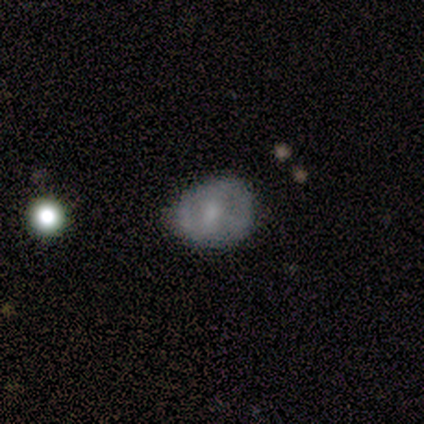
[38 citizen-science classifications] Smooth or featured? featured or disk (50%)
Edge-on disk? no (95%)
Bar? no (50%)
Spiral arms? no (61%)
Bulge size? small (39%)
Merging? none (54%)